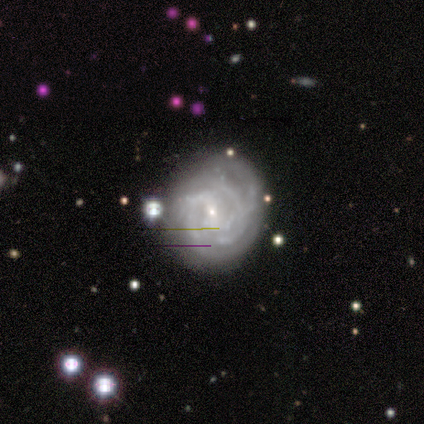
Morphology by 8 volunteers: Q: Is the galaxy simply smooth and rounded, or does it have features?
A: featured or disk — 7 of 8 (88%).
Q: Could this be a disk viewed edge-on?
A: no — 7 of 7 (100%).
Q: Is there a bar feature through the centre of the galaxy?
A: weak — 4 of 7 (57%).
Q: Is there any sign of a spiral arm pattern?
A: yes — 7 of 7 (100%).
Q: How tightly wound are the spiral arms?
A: tight — 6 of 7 (86%).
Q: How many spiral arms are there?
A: can't tell — 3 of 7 (43%).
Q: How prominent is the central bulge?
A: small — 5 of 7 (71%).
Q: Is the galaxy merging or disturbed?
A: minor disturbance — 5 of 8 (62%).